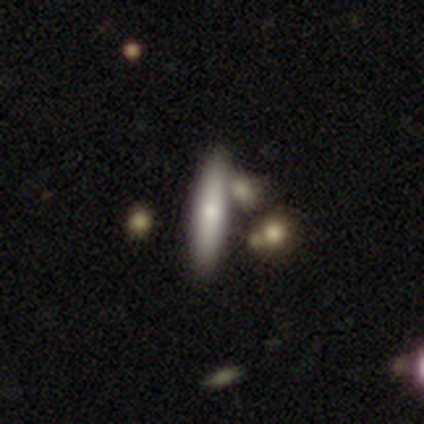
smooth 60%, featured or disk 20%, star or artifact 20%. Down the decision tree: how rounded — cigar-shaped (100%); merging — none (75%).